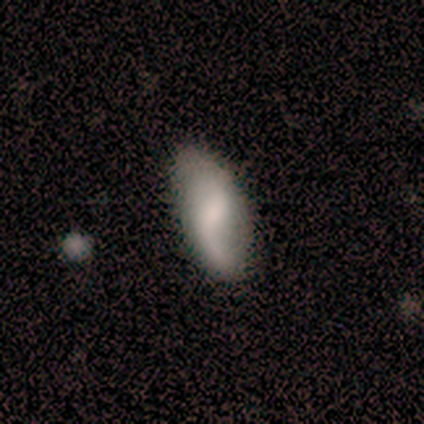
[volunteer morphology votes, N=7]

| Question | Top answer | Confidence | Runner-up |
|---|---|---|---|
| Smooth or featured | smooth | 71% | featured or disk (29%) |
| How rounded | in between | 100% | — |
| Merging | none | 57% | minor disturbance (43%) |